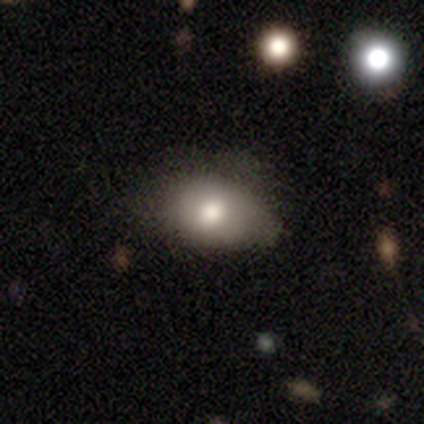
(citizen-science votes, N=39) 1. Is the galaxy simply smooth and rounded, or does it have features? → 72% smooth, 21% featured or disk, 8% star or artifact.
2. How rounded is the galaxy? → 89% in between, 11% round, 0% cigar-shaped.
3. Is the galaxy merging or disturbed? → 53% none, 33% minor disturbance, 11% major disturbance, 3% merger.